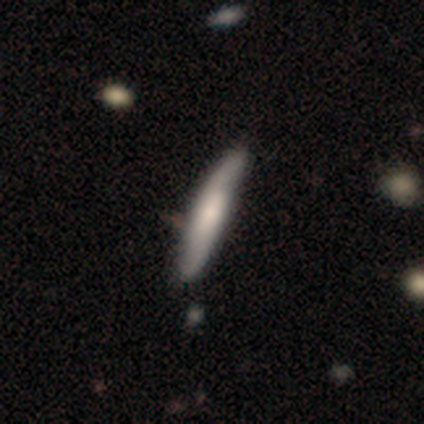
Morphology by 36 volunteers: smooth-or-featured: smooth: 53% | featured or disk: 39% | star or artifact: 8%
  how-rounded: cigar-shaped: 100% | round: 0% | in between: 0%
  merging: none: 67% | minor disturbance: 15% | merger: 3% | major disturbance: 0%